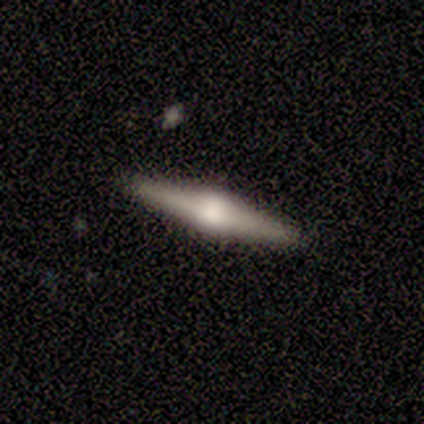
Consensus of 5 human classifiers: A featured or disk galaxy (80%) viewed edge-on (100%) with a rounded central bulge (100%). Merging: none (80%).